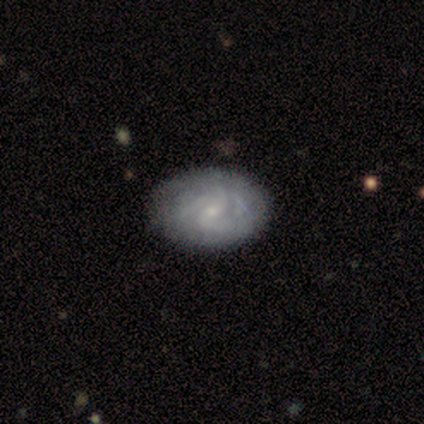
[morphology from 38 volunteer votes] Smooth or featured?
  - featured or disk: 89% *
  - smooth: 8%
  - star or artifact: 3%
Edge-on disk?
  - no: 97% *
  - yes: 3%
Bar?
  - no: 58% *
  - weak: 39%
  - strong: 3%
Spiral arms?
  - yes: 88% *
  - no: 12%
Spiral winding?
  - tight: 41% * (tied)
  - medium: 41% * (tied)
  - loose: 17%
Spiral arm count?
  - 3: 38% *
  - can't tell: 34%
  - 2: 24%
  - 4: 3%
  - 1: 0%
  - more than 4: 0%
Bulge size?
  - small: 88% *
  - moderate: 6%
  - none: 6%
  - dominant: 0%
  - large: 0%
Merging?
  - none: 41% *
  - minor disturbance: 16%
  - merger: 5%
  - major disturbance: 0%